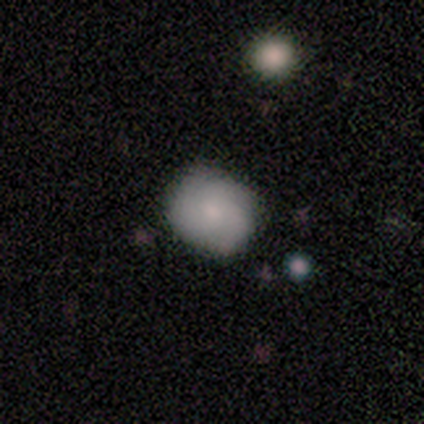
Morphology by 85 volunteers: A smooth galaxy with no disk features (54%) that is round (74%).

Vote fractions:
- Smooth or featured? smooth: 54% / featured or disk: 35% / star or artifact: 11%
- How rounded? round: 74% / in between: 24% / cigar-shaped: 2%
- Merging? none: 78% / minor disturbance: 14% / major disturbance: 5% / merger: 3%